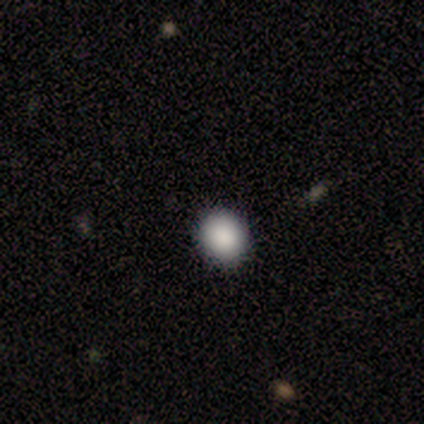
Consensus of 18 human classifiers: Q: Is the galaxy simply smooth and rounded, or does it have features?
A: smooth — 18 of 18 (100%).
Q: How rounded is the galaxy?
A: round — 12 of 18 (67%).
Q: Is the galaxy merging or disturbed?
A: none — 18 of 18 (100%).